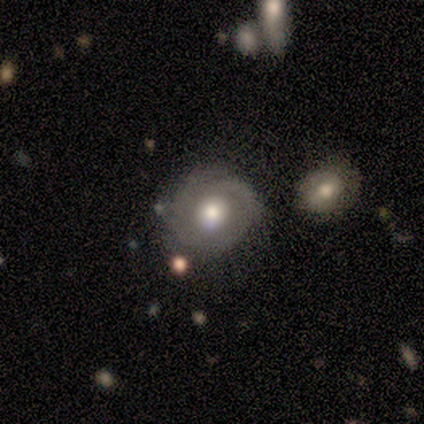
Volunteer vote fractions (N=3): This appears to be a smooth galaxy with no disk features (67%) that is round (100%). Merging: minor disturbance (67%).